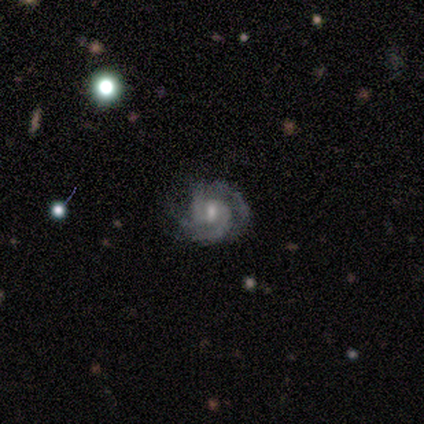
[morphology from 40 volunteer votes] A featured or disk galaxy (88%) with a weak bar (61%), 2 (53%) tight (53%) spiral arms (97%) and a moderate central bulge (55%). Merging: none (69%).